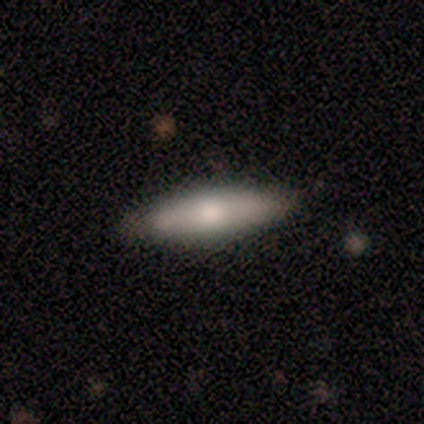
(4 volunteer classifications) Smooth or featured? 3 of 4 (75%) said smooth. How rounded? 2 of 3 (67%) said cigar-shaped. Merging? 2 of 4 (50%) said minor disturbance.